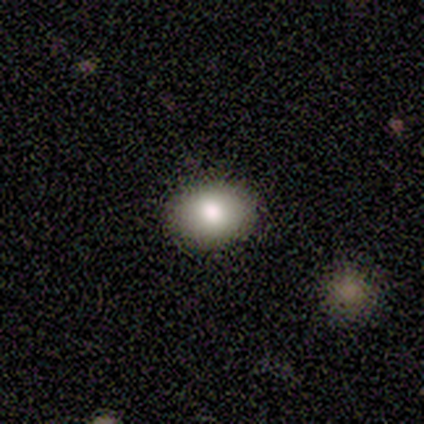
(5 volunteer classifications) Consensus on every question: smooth or featured — smooth (100%); how rounded — in between (100%); merging — none (100%).